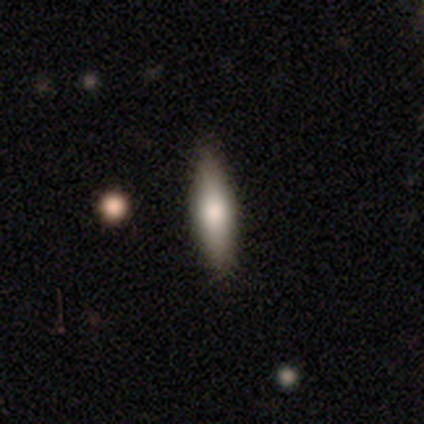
Morphology: type=smooth (67%); roundness=cigar-shaped (73%); merging=none (96%).